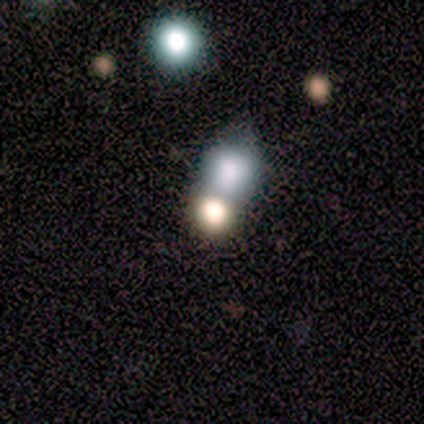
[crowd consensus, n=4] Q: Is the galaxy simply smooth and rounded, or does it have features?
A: star or artifact — 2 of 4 (50%).